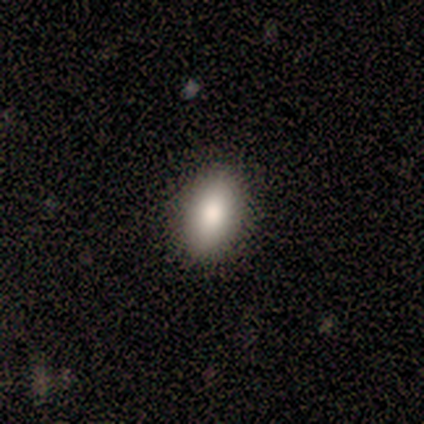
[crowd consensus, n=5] This appears to be a smooth galaxy with no disk features (100%) that is in between round and cigar-shaped (100%). Merging: none (80%).